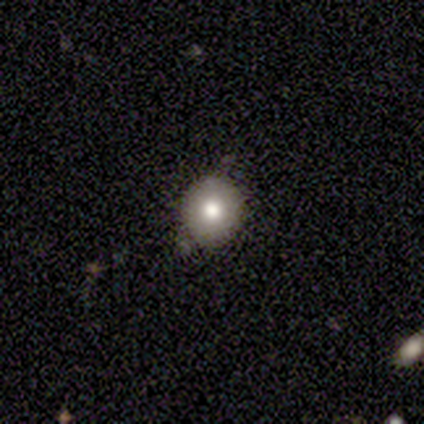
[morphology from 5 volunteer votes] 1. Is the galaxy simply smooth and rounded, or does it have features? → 60% smooth, 40% featured or disk, 0% star or artifact.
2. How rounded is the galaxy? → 100% round, 0% in between, 0% cigar-shaped.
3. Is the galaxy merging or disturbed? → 80% none, 20% minor disturbance, 0% major disturbance, 0% merger.